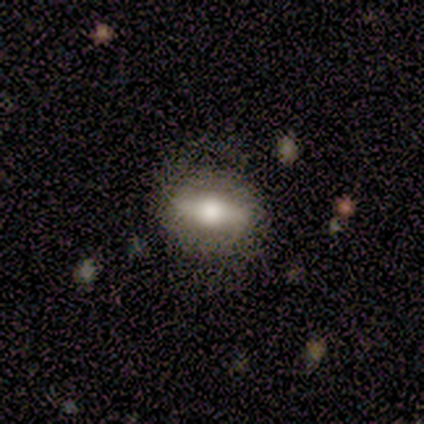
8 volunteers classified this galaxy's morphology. Q: Smooth or featured?
A: featured or disk (75%); runner-up: smooth (25%)
Q: Edge-on disk?
A: no (83%); runner-up: yes (17%)
Q: Bar?
A: strong (60%); runner-up: no (40%)
Q: Spiral arms?
A: no (80%); runner-up: yes (20%)
Q: Bulge size?
A: large (40%); tied with: moderate (40%)
Q: Merging?
A: none (88%); runner-up: minor disturbance (12%)